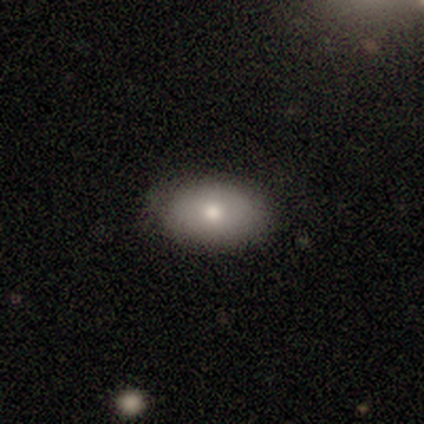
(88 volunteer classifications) smooth_or_featured: smooth (p=0.82) [alt: featured or disk p=0.11]
how_rounded: in between (p=0.85) [alt: round p=0.12]
merging: none (p=0.79) [alt: minor disturbance p=0.18]